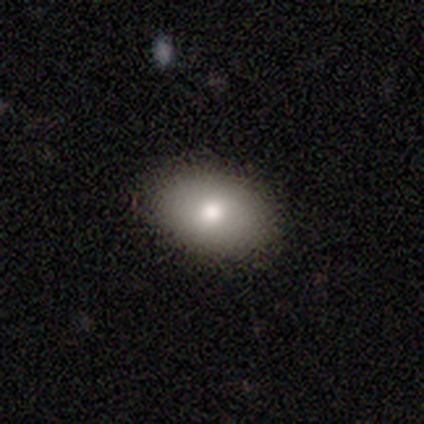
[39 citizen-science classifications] Volunteers were most divided on "smooth or featured": smooth: 64%, featured or disk: 36%, star or artifact: 0%. More confident: how rounded — in between (88%); merging — none (87%).